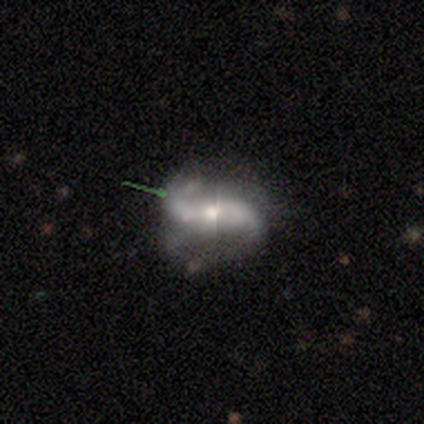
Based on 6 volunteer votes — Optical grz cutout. It shows a featured or disk galaxy (83%) with a strong bar (40%, tied with no), 2 (100%) loose (67%) spiral arms (60%) and a moderate central bulge (80%). Merging: none (33%, tied with minor disturbance and major disturbance).